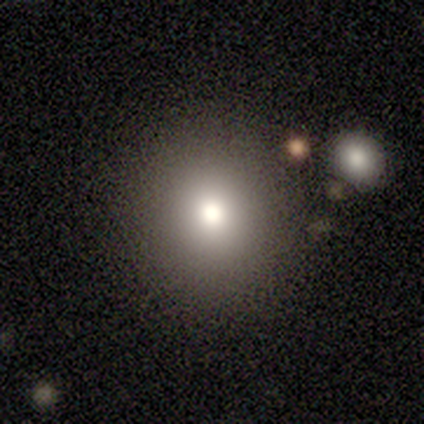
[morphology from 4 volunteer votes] smooth_or_featured: smooth (p=1.00)
how_rounded: round (p=1.00)
merging: none (p=1.00)